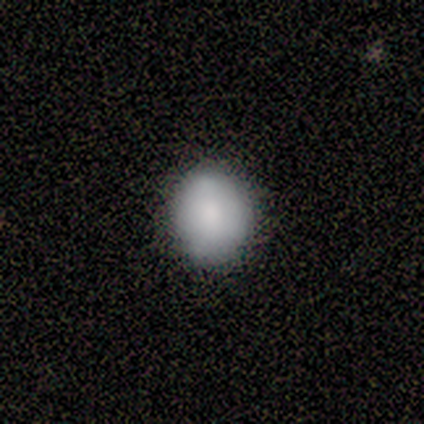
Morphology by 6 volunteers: Smooth or featured: smooth — 100%
How rounded: round — 67% (in between — 33%)
Merging: none — 100%